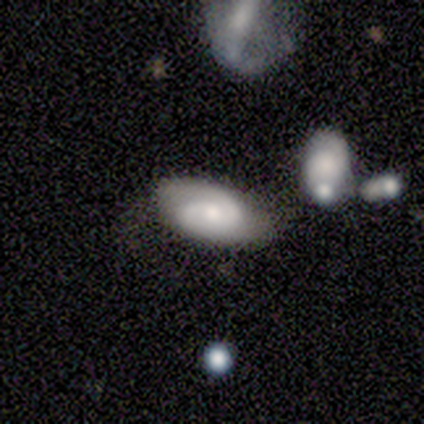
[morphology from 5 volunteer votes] Smooth or featured? featured or disk (80%)
Edge-on disk? no (100%)
Bar? no (75%)
Spiral arms? yes (75%)
Spiral winding? loose (67%)
Spiral arm count? 2 (100%)
Bulge size? moderate (75%)
Merging? none (80%)